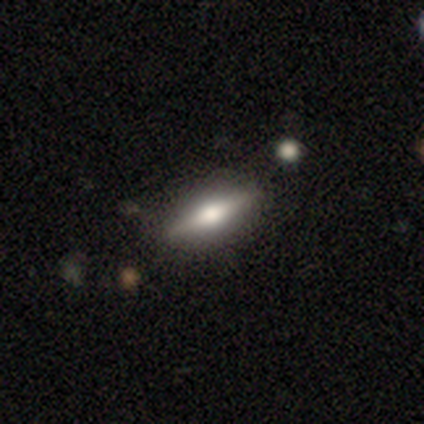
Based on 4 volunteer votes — Smooth or featured?
  - smooth: 75% *
  - featured or disk: 25%
  - star or artifact: 0%
How rounded?
  - cigar-shaped: 67% *
  - in between: 33%
  - round: 0%
Merging?
  - none: 50% *
  - minor disturbance: 25%
  - major disturbance: 25%
  - merger: 0%